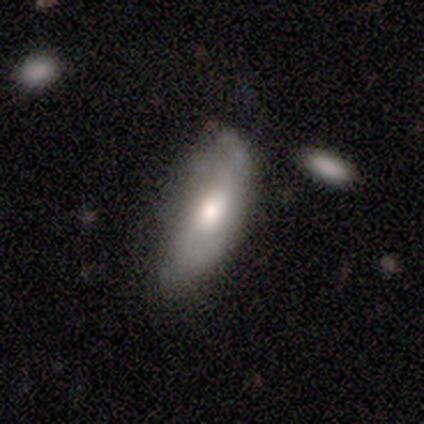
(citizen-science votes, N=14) A smooth galaxy with no disk features (79%) that is in between round and cigar-shaped (73%). Merging: none (57%).